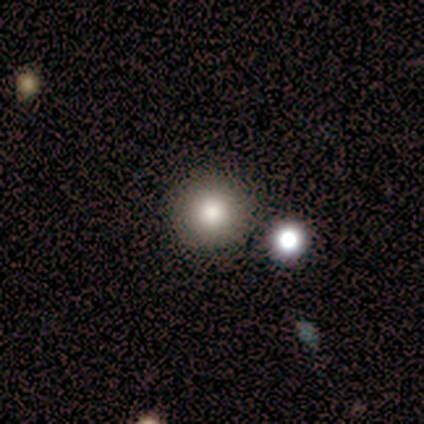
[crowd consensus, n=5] Smooth or featured? 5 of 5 (100%) said smooth. How rounded? 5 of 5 (100%) said round. Merging? 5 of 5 (100%) said none.